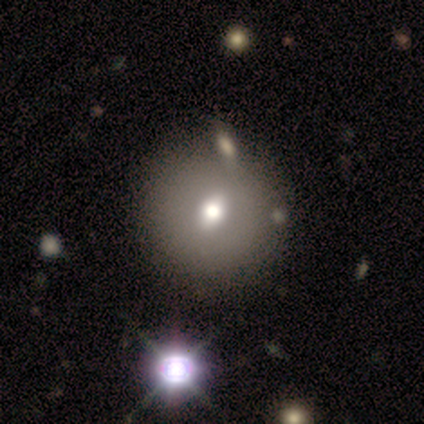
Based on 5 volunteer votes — smooth-or-featured: smooth: 60% | featured or disk: 20% | star or artifact: 20%
  how-rounded: round: 67% | in between: 33% | cigar-shaped: 0%
  merging: none: 75% | merger: 25% | minor disturbance: 0% | major disturbance: 0%